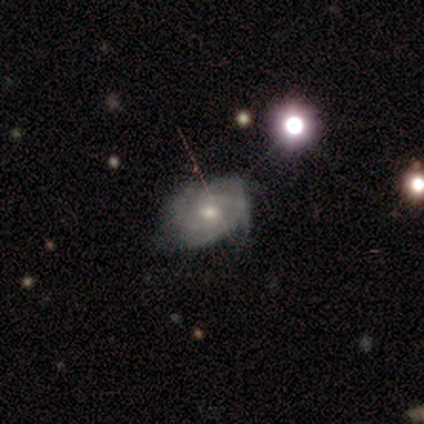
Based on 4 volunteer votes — smooth-or-featured: featured or disk: 100% | smooth: 0% | star or artifact: 0%
  disk-edge-on: no: 100% | yes: 0%
    bar: weak: 50% (tied) | no: 50% (tied) | strong: 0%
    has-spiral-arms: yes: 75% | no: 25%
      spiral-winding: tight: 67% | loose: 33% | medium: 0%
      spiral-arm-count: can't tell: 67% | 4: 33% | 1: 0% | 2: 0% | 3: 0% | more than 4: 0%
    bulge-size: moderate: 75% | small: 25% | dominant: 0% | large: 0% | none: 0%
  merging: none: 100% | minor disturbance: 0% | major disturbance: 0% | merger: 0%